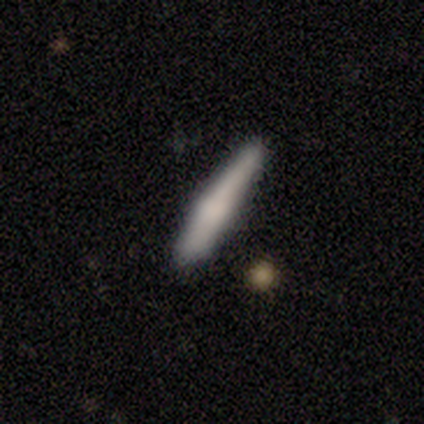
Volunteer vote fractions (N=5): Overall: smooth (60%; featured or disk 40%). How rounded: cigar-shaped (100%). Merging: none (60%; minor disturbance 40%).